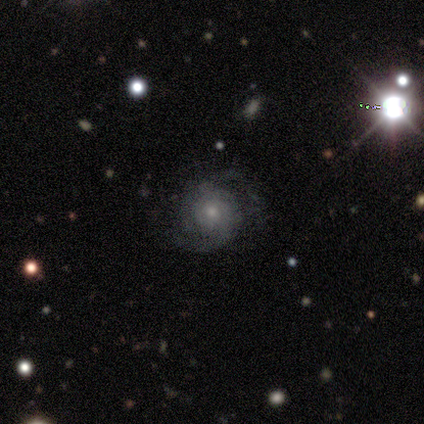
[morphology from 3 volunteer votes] This is clearly a featured or disk galaxy (100%). It is clearly not viewed edge-on (100%). Bar: likely no (67%). Spiral arm pattern: clearly yes (100%). Spiral arm count: clearly 2 (100%). Spiral winding: likely tight (67%). Central bulge: clearly small (100%). Merging: clearly none (100%).